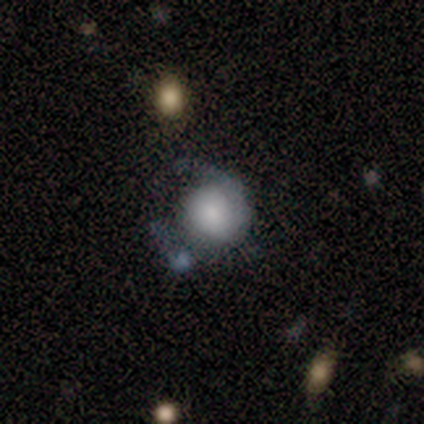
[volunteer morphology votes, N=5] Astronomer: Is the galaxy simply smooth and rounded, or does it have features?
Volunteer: smooth — 40%, tied with featured or disk at 40%.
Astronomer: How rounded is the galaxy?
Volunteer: round — 50%, tied with in between at 50%.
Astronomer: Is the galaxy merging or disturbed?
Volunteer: none — 25%, tied with minor disturbance, major disturbance and merger at 25%.